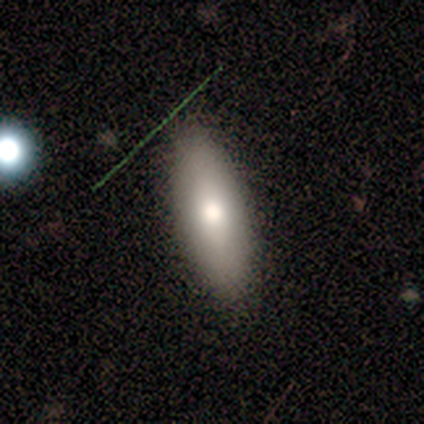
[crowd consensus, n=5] A smooth galaxy with no disk features (100%) that is in between round and cigar-shaped (80%).

Vote fractions:
- Smooth or featured? smooth: 100% / featured or disk: 0% / star or artifact: 0%
- How rounded? in between: 80% / cigar-shaped: 20% / round: 0%
- Merging? none: 80% / minor disturbance: 20% / major disturbance: 0% / merger: 0%